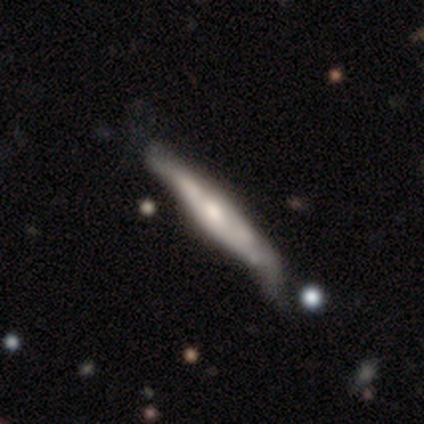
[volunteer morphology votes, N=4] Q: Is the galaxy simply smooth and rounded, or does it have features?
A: featured or disk — 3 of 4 (75%).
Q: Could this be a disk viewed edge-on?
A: yes — 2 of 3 (67%).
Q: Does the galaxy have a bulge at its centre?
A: rounded — 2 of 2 (100%).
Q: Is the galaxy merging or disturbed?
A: minor disturbance — 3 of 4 (75%).